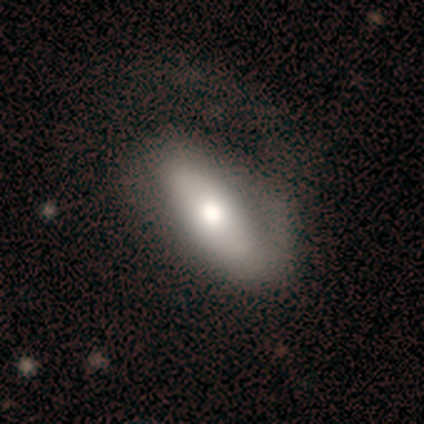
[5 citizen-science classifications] Smooth or featured: smooth — 80% (star or artifact — 20%)
How rounded: in between — 75% (cigar-shaped — 25%)
Merging: none — 50% (minor disturbance — 25%)